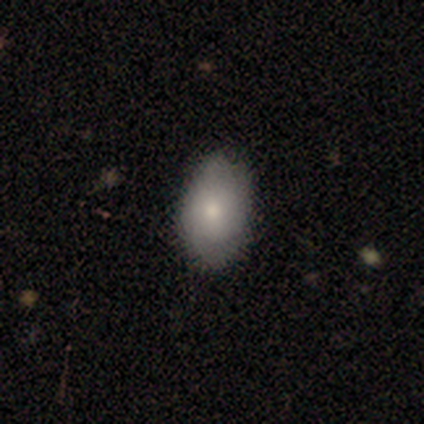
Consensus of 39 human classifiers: Smooth or featured?
  - smooth: 72% *
  - featured or disk: 21%
  - star or artifact: 8%
How rounded?
  - in between: 89% *
  - round: 11%
  - cigar-shaped: 0%
Merging?
  - none: 39% *
  - minor disturbance: 14%
  - merger: 3%
  - major disturbance: 0%